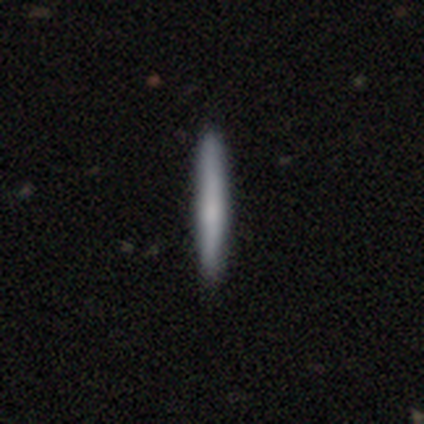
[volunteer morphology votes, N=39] smooth 56%, featured or disk 33%, star or artifact 10%. Down the decision tree: how rounded — cigar-shaped (100%); merging — none (94%).